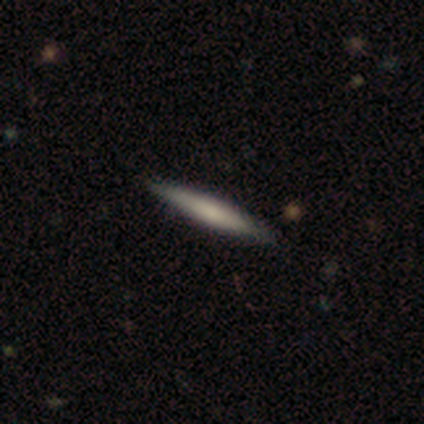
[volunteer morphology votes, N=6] Overall: smooth (50%, tied with featured or disk). How rounded: cigar-shaped (100%). Merging: none (83%).